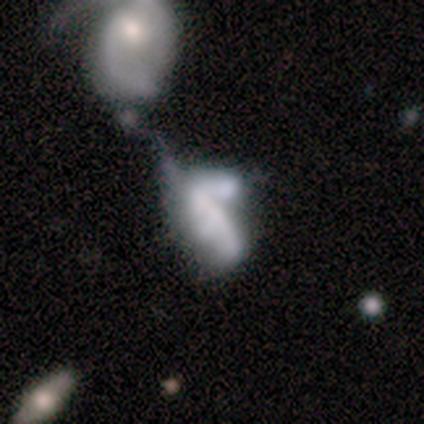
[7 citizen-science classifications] Smooth or featured? 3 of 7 (43%, tied with featured or disk) said smooth. How rounded? 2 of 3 (67%) said in between. Merging? 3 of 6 (50%) said merger.